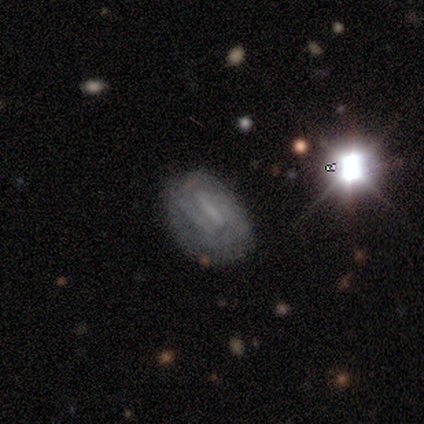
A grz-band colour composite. It shows a featured or disk galaxy (60%) with a strong bar (33%, tied with weak and no), no spiral arms (67%) and a moderate central bulge (33%, tied with small and none). Merging: none (67%).